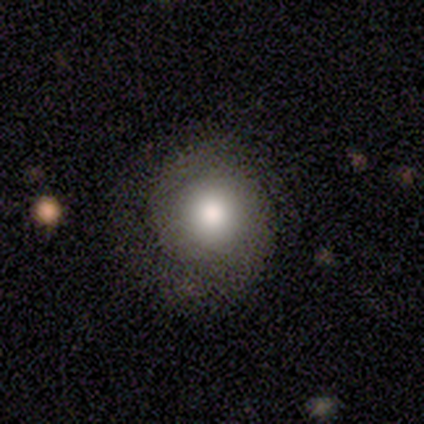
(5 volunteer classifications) smooth 60%, featured or disk 20%, star or artifact 20%. Down the decision tree: how rounded — round (100%); merging — none (75%).